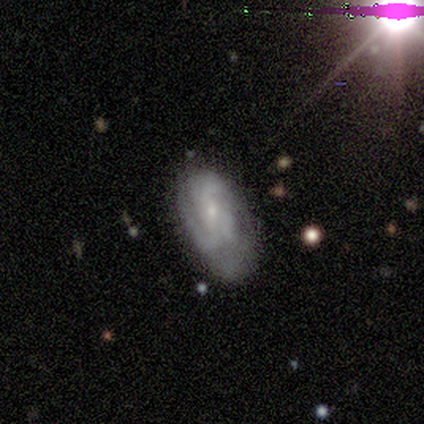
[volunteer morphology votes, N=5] A smooth galaxy with no disk features (80%) that is in between round and cigar-shaped (100%). Merging: none (60%).